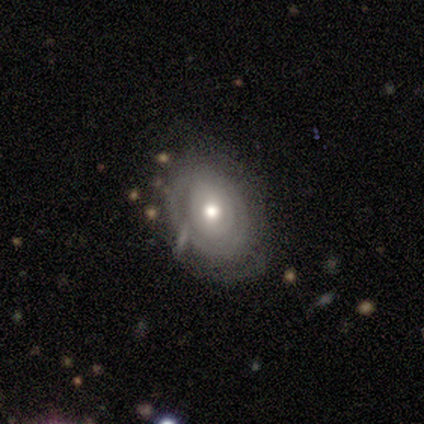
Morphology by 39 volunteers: Volunteers were most divided on "spiral arms": yes: 60%, no: 40%. More confident: edge-on disk — no (96%); bar — no (76%); bulge size — moderate (76%); spiral winding — tight (73%); smooth or featured — featured or disk (67%); merging — none (61%); spiral arm count — can't tell (60%).